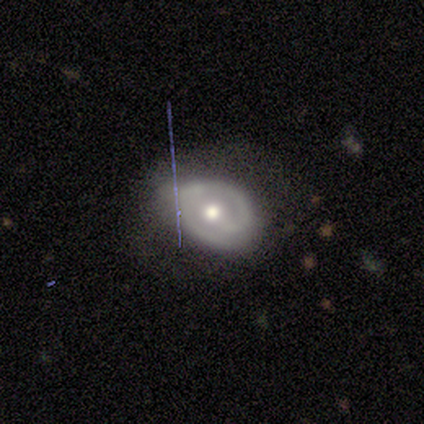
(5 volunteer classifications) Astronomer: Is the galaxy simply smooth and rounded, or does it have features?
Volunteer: featured or disk — 60%.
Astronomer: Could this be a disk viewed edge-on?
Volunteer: no — 67%.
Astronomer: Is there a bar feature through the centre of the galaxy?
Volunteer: strong — 50%, tied with weak at 50%.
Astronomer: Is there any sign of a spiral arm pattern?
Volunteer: yes — 100%.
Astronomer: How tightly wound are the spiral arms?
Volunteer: tight — 100%.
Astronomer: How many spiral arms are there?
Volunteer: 2 — 100%.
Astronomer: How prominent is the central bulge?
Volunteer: moderate — 100%.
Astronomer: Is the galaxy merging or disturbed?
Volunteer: none — 50%, tied with minor disturbance at 50%.